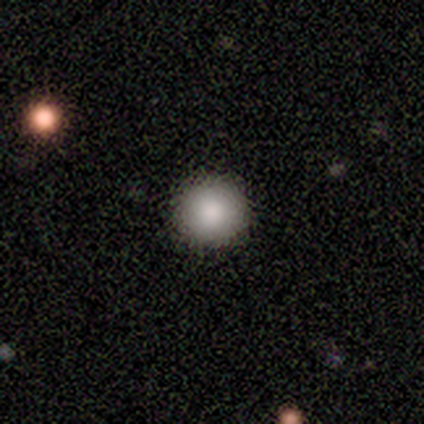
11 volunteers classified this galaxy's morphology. This appears to be a smooth galaxy with no disk features (91%) that is round (100%). Merging: none (91%).